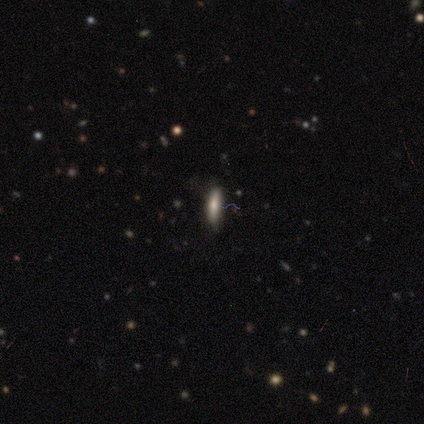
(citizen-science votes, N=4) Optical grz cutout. It shows a smooth galaxy with no disk features (75%) that is cigar-shaped (100%). Merging: none (100%).